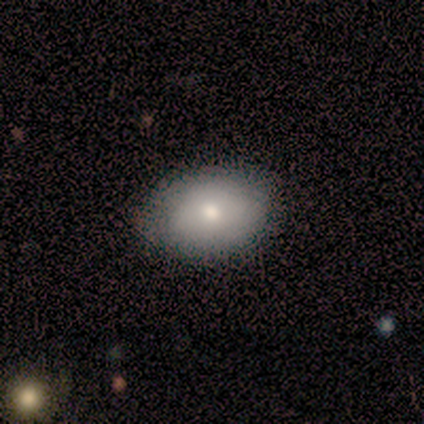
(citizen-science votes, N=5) Smooth or featured: smooth — 80% (star or artifact — 20%)
How rounded: in between — 100%
Merging: none — 100%